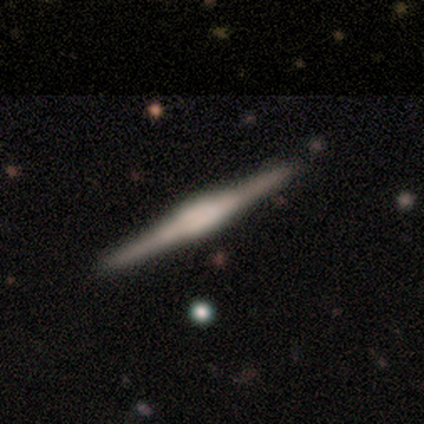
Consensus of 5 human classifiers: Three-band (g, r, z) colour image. It shows a featured or disk galaxy (60%) viewed edge-on (100%) with a boxy central bulge (67%). Merging: none (100%).